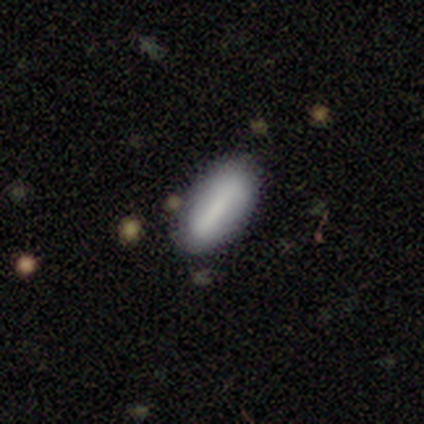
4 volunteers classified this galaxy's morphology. A smooth galaxy with no disk features (75%) that is in between round and cigar-shaped (67%).

Vote fractions:
- Smooth or featured? smooth: 75% / featured or disk: 25% / star or artifact: 0%
- How rounded? in between: 67% / cigar-shaped: 33% / round: 0%
- Merging? none: 75% / major disturbance: 25% / minor disturbance: 0% / merger: 0%